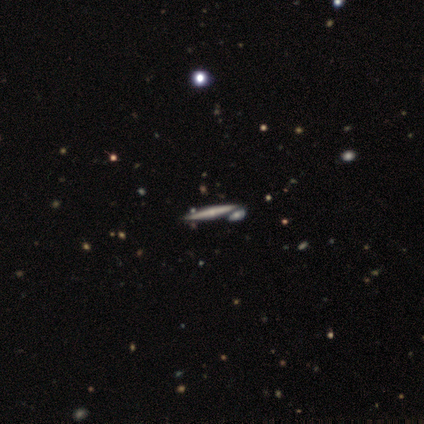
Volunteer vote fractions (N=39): Smooth or featured? 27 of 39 (69%) said featured or disk. Edge-on disk? 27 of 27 (100%) said yes. Edge-on bulge? 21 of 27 (78%) said rounded. Merging? 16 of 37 (43%) said none.